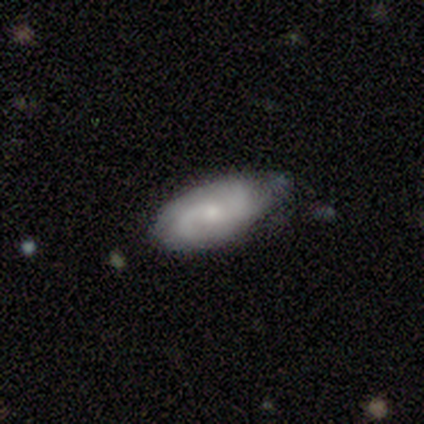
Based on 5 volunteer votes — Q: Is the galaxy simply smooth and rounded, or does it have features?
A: featured or disk — 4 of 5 (80%).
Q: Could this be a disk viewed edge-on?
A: no — 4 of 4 (100%).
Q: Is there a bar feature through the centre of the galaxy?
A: weak — 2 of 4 (50%, tied with no).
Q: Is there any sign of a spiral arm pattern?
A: yes — 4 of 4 (100%).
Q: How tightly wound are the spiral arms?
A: tight — 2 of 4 (50%, tied with medium).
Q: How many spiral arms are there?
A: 2 — 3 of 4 (75%).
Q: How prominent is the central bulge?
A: small — 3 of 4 (75%).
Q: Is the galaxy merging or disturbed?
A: minor disturbance — 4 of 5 (80%).